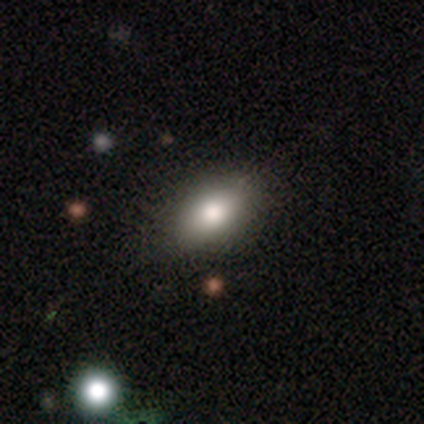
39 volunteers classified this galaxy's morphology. This appears to be a smooth galaxy with no disk features (82%) that is in between round and cigar-shaped (88%). Merging: none (84%).